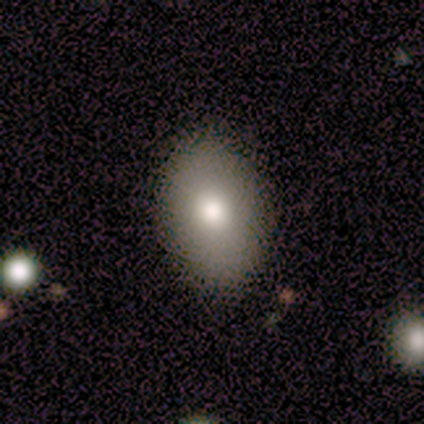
A smooth galaxy with no disk features (75%) that is in between round and cigar-shaped (100%).

Vote fractions:
- Smooth or featured? smooth: 75% / featured or disk: 25% / star or artifact: 0%
- How rounded? in between: 100% / round: 0% / cigar-shaped: 0%
- Merging? none: 100% / minor disturbance: 0% / major disturbance: 0% / merger: 0%